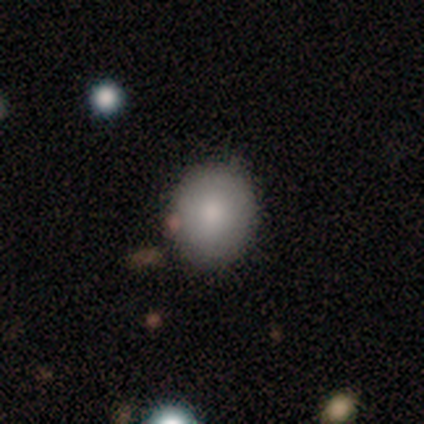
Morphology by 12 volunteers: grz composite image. It shows a smooth galaxy with no disk features (75%) that is round (67%). Merging: none (75%).